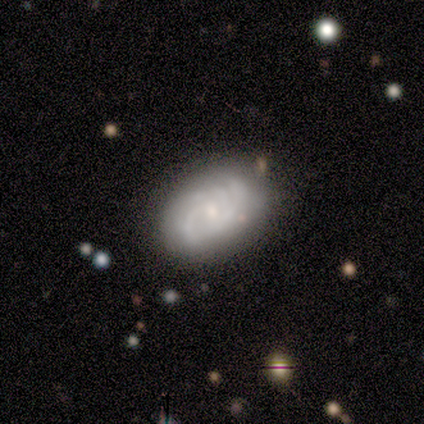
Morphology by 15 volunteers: Smooth or featured?
  - featured or disk: 80% *
  - smooth: 20%
  - star or artifact: 0%
Edge-on disk?
  - no: 100% *
  - yes: 0%
Bar?
  - no: 67% *
  - weak: 33%
  - strong: 0%
Spiral arms?
  - yes: 100% *
  - no: 0%
Spiral winding?
  - tight: 50% *
  - medium: 42%
  - loose: 8%
Spiral arm count?
  - 3: 50% *
  - 2: 17%
  - 4: 17%
  - can't tell: 17%
  - 1: 0%
  - more than 4: 0%
Bulge size?
  - small: 58% *
  - moderate: 42%
  - dominant: 0%
  - large: 0%
  - none: 0%
Merging?
  - none: 87% *
  - minor disturbance: 7%
  - major disturbance: 7%
  - merger: 0%